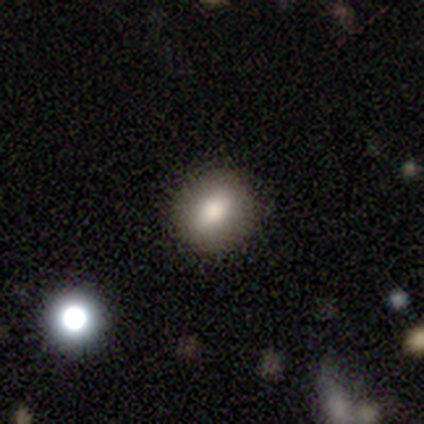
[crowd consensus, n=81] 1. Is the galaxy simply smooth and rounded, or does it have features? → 78% smooth, 16% star or artifact, 6% featured or disk.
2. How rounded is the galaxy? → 65% round, 32% in between, 3% cigar-shaped.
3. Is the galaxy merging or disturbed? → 46% none, 4% minor disturbance, 4% merger, 0% major disturbance.